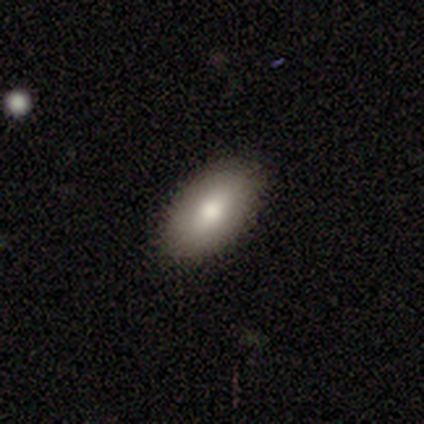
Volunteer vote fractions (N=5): smooth_or_featured: smooth (p=0.80) [alt: featured or disk p=0.20]
how_rounded: in between (p=0.75) [alt: cigar-shaped p=0.25]
merging: none (p=0.80) [alt: major disturbance p=0.20]